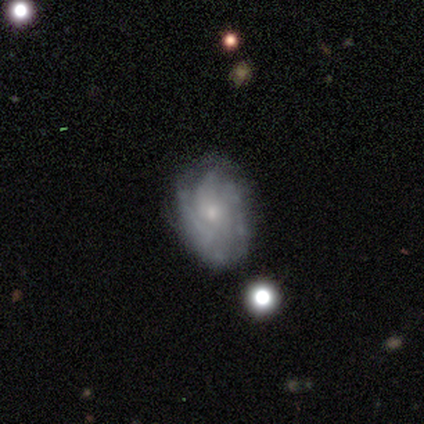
This is likely a featured or disk galaxy (70%). It is clearly not viewed edge-on (100%). Bar: likely no (71%). Spiral arm pattern: clearly yes (86%). Spiral arm count: marginally 4 (33%, tied with more than 4). Spiral winding: marginally tight (33%, tied with medium and loose). Central bulge: possibly small (57%). Merging: clearly none (80%).